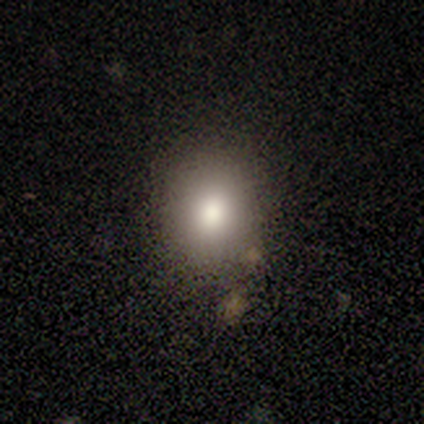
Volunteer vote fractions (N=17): This appears to be a smooth galaxy with no disk features (88%) that is in between round and cigar-shaped (60%). Merging: none (94%).